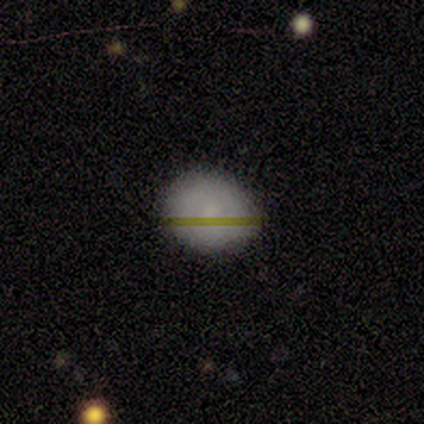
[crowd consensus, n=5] Volunteers were most divided on "how rounded": round: 75%, in between: 25%, cigar-shaped: 0%. More confident: merging — none (100%); smooth or featured — smooth (80%).